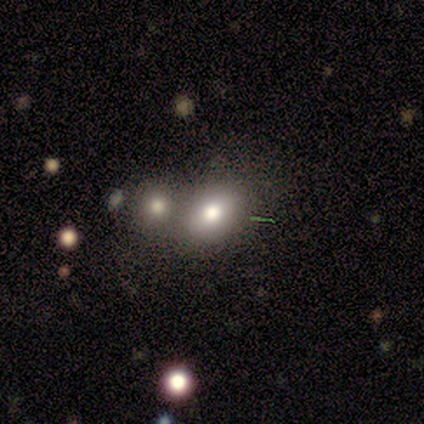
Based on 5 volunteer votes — Morphology: type=smooth (80%); roundness=in between (100%); merging=none (80%).